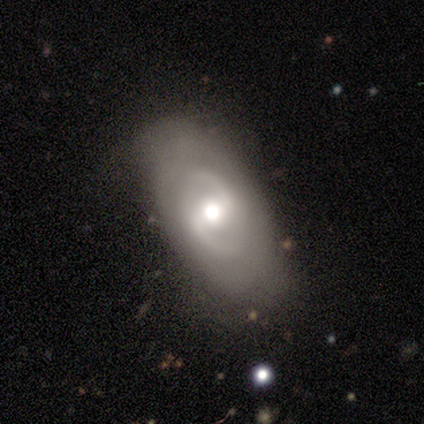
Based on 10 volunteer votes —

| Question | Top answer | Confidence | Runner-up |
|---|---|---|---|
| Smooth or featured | featured or disk | 90% | star or artifact (10%) |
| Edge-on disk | no | 100% | — |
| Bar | weak | 67% | strong (33%) |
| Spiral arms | yes | 100% | — |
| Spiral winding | tight | 44% | medium (33%) |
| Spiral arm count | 2 | 78% | can't tell (22%) |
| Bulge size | moderate | 67% | large (33%) |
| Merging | none | 56% | minor disturbance (33%) |